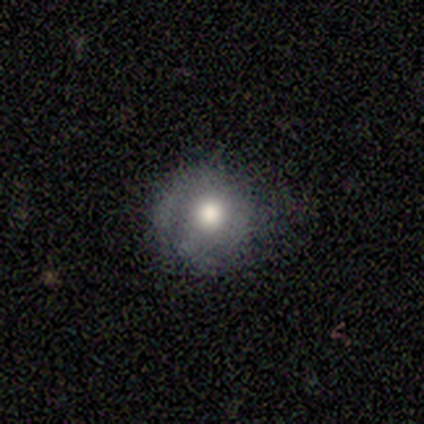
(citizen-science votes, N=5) This is likely a featured or disk galaxy (60%). It is clearly not viewed edge-on (100%). Bar: likely no (67%). Spiral arm pattern: clearly no (100%). Central bulge: likely moderate (67%). Merging: clearly none (80%).